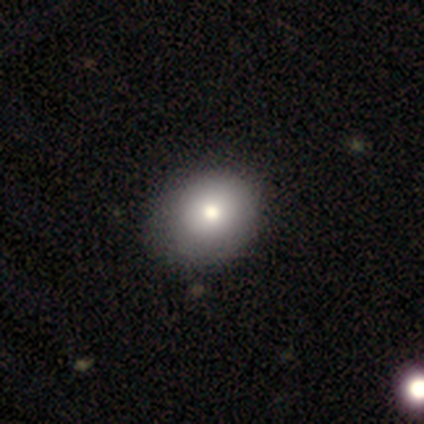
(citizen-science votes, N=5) Smooth or featured? smooth (80%)
How rounded? round (100%)
Merging? none (40%, tied with minor disturbance)